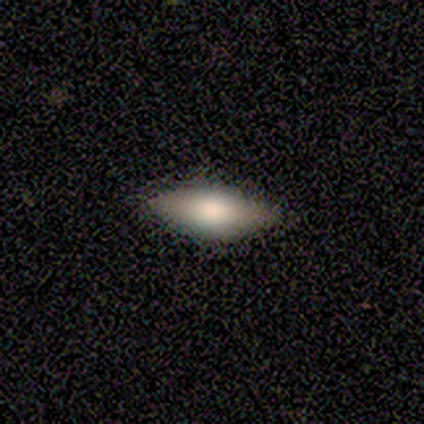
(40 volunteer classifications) Smooth or featured: smooth — 68% (featured or disk — 30%)
How rounded: in between — 70% (cigar-shaped — 30%)
Merging: none — 62% (merger — 5%)